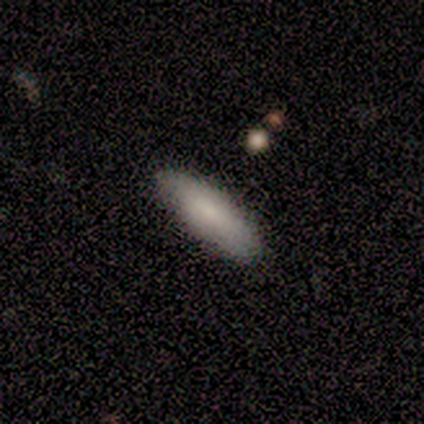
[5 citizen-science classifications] Q: Smooth or featured?
A: smooth (80%); runner-up: featured or disk (20%)
Q: How rounded?
A: in between (100%)
Q: Merging?
A: none (100%)